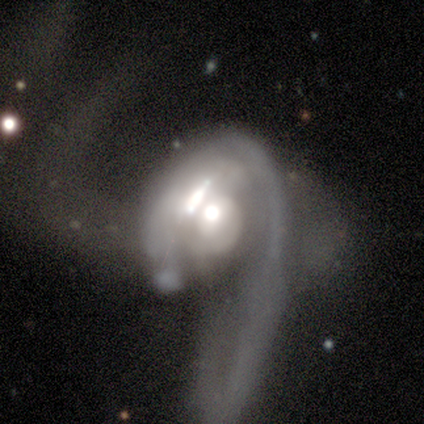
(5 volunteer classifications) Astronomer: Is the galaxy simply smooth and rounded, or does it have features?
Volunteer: featured or disk — 60%.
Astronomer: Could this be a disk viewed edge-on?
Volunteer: no — 100%.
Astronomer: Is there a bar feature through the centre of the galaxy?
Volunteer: strong — 33%, tied with weak and no at 33%.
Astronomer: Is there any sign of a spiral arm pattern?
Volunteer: no — 67%.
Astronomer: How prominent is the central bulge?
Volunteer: moderate — 67%.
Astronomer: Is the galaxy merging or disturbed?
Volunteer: merger — 75%.